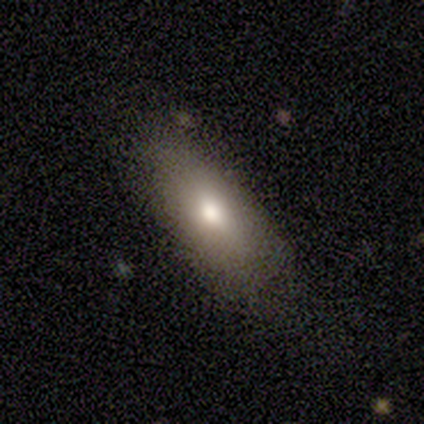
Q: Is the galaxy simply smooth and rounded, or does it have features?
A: smooth — 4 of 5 (80%).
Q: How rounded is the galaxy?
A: in between — 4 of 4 (100%).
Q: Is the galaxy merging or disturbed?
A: none — 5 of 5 (100%).